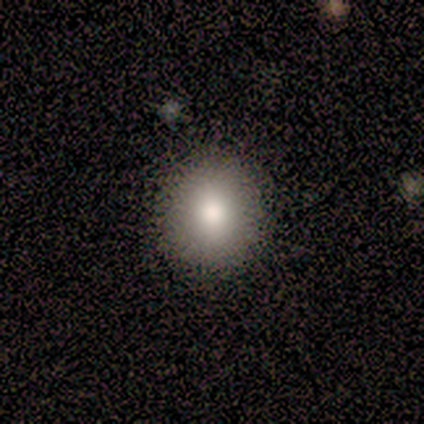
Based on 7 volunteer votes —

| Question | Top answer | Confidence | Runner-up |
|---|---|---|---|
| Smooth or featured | smooth | 100% | — |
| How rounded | round | 71% | in between (29%) |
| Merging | none | 86% | minor disturbance (14%) |